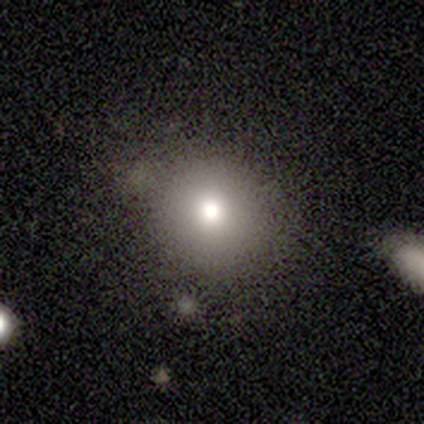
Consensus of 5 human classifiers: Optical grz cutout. It shows a smooth galaxy with no disk features (80%) that is round (100%). Merging: none (100%).